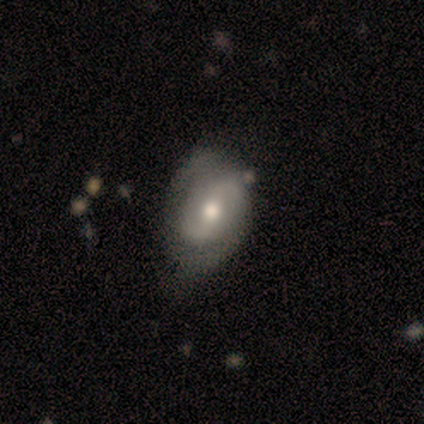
featured or disk 100%, smooth 0%, star or artifact 0%. Down the decision tree: edge-on disk — no (100%); bar — weak (60%); spiral arms — yes (100%); spiral arm count — 2 (100%); spiral winding — medium (60%); bulge size — moderate (80%); merging — none (80%).